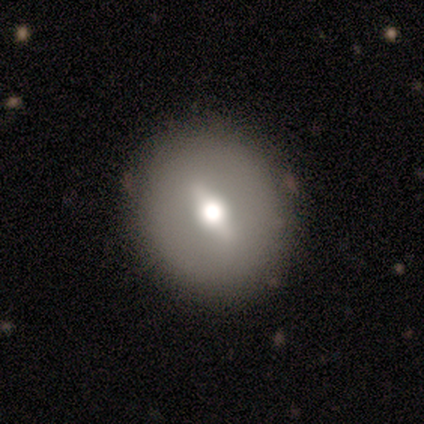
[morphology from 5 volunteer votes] A smooth galaxy with no disk features (40%, tied with featured or disk) that is round (100%). Merging: none (100%).